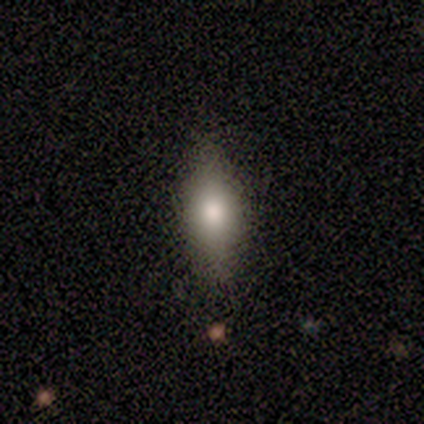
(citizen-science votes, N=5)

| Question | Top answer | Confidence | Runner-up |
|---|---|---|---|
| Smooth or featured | smooth | 100% | — |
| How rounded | in between | 80% | cigar-shaped (20%) |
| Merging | none | 80% | minor disturbance (20%) |